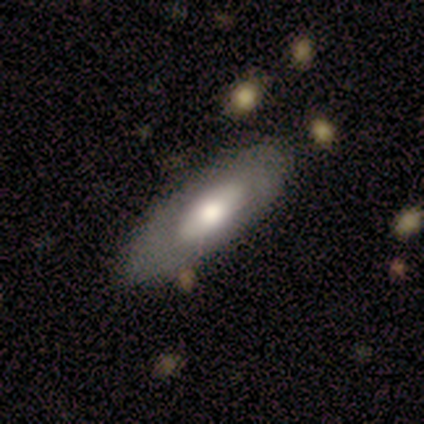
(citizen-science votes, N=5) This is likely a smooth galaxy (60%). How rounded: likely cigar-shaped (67%). Merging: likely none (60%).